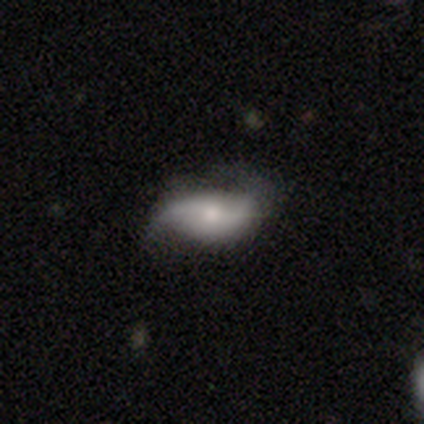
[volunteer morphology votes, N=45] Smooth or featured? featured or disk (56%)
Edge-on disk? no (80%)
Bar? no (70%)
Spiral arms? yes (100%)
Spiral winding? loose (60%)
Spiral arm count? 2 (85%)
Bulge size? moderate (40%, tied with small)
Merging? none (48%)